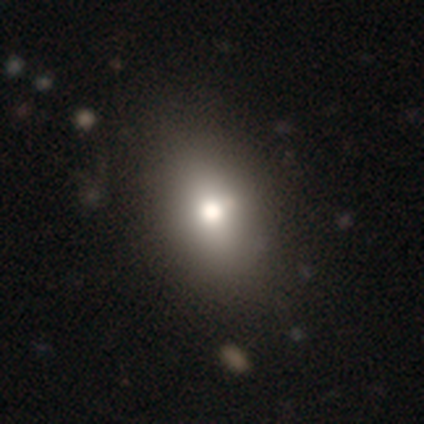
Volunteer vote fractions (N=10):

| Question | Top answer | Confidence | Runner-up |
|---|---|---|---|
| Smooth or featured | smooth | 80% | featured or disk (10%) |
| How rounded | in between | 88% | round (12%) |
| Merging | none | 78% | minor disturbance (11%) |